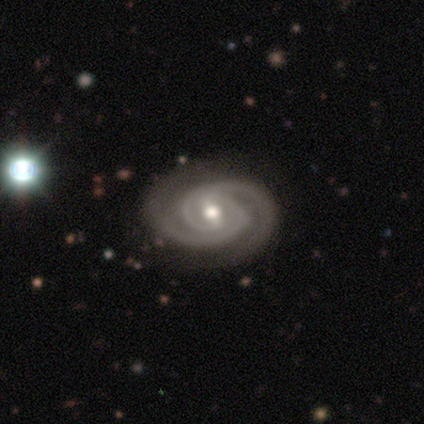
A featured or disk galaxy (97%) with a weak bar (46%), 2 (100%) tight (84%) spiral arms (100%) and a moderate central bulge (84%).

Vote fractions:
- Smooth or featured? featured or disk: 97% / smooth: 3% / star or artifact: 0%
- Edge-on disk? no: 97% / yes: 3%
- Bar? weak: 46% / strong: 41% / no: 14%
- Spiral arms? yes: 100% / no: 0%
- Spiral winding? tight: 84% / medium: 16% / loose: 0%
- Spiral arm count? 2: 100% / 1: 0% / 3: 0% / 4: 0% / more than 4: 0% / can't tell: 0%
- Bulge size? moderate: 84% / large: 8% / small: 8% / dominant: 0% / none: 0%
- Merging? none: 64% / minor disturbance: 8% / major disturbance: 0% / merger: 0%